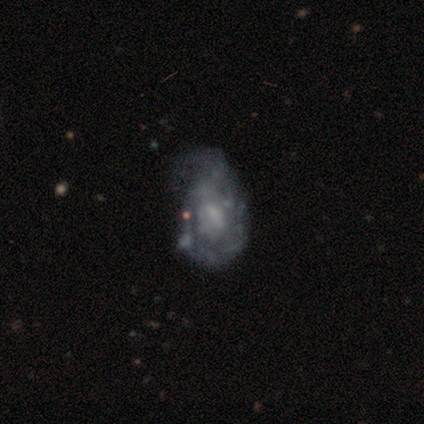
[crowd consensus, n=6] Morphology: type=featured or disk (83%); edge-on=no (100%); bar=no (60%); spiral arms=no (60%); bulge=small (60%); merging=minor disturbance (40%, tied with major disturbance).